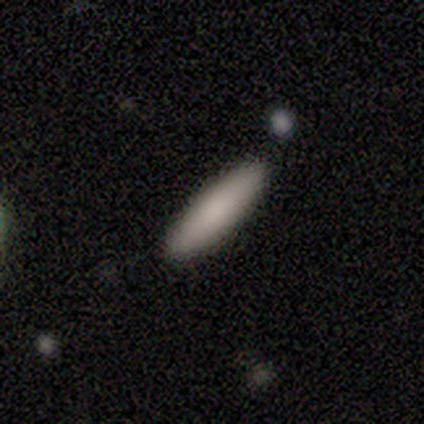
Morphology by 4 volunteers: type=smooth (100%); roundness=cigar-shaped (75%); merging=none (100%).